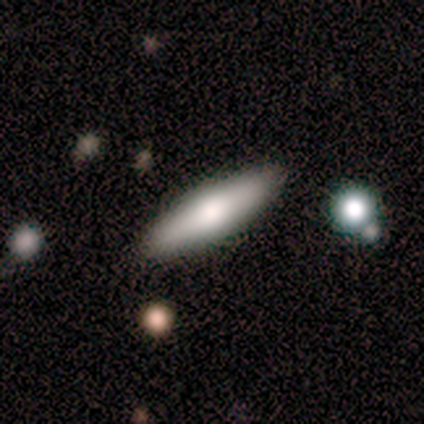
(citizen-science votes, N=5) This appears to be a featured or disk galaxy (60%) viewed edge-on (100%) with a rounded central bulge (100%). Merging: none (100%).